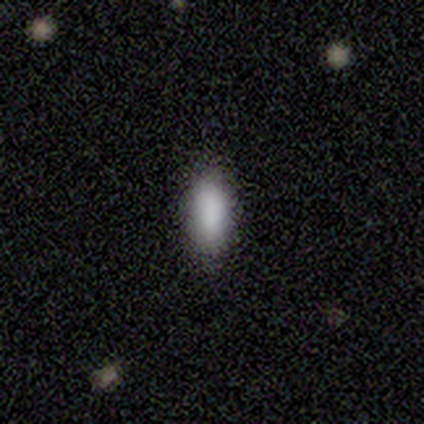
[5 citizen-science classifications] Q: Smooth or featured?
A: smooth (100%)
Q: How rounded?
A: cigar-shaped (60%); runner-up: in between (40%)
Q: Merging?
A: none (100%)